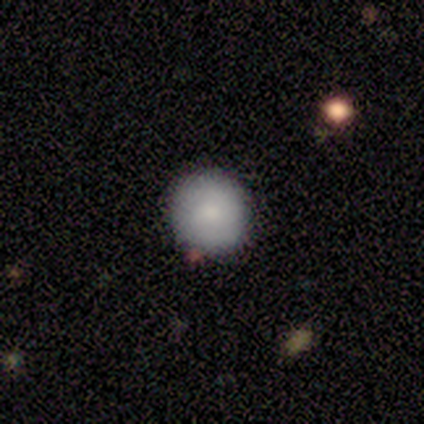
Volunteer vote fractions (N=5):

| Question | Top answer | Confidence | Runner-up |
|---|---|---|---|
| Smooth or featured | smooth | 100% | — |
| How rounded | round | 100% | — |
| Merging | none | 100% | — |